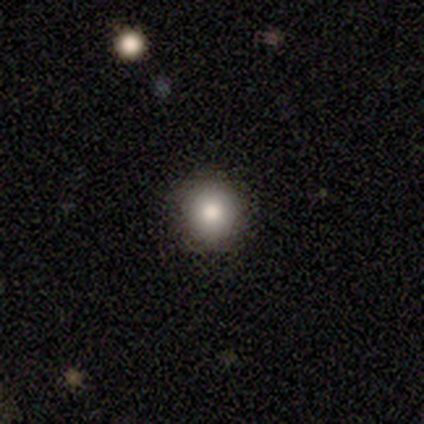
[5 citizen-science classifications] smooth 100%, featured or disk 0%, star or artifact 0%. Down the decision tree: how rounded — round (100%); merging — none (100%).